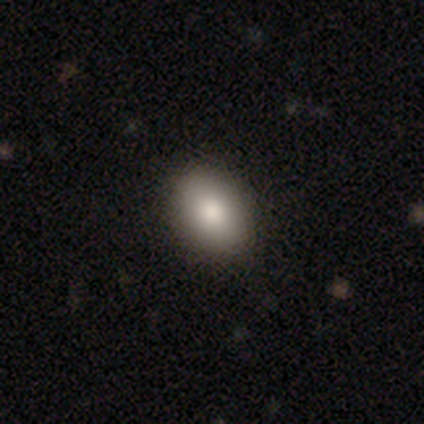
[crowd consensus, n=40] Smooth or featured: smooth — 90% (featured or disk — 8%)
How rounded: in between — 83% (round — 17%)
Merging: none — 72% (minor disturbance — 8%)